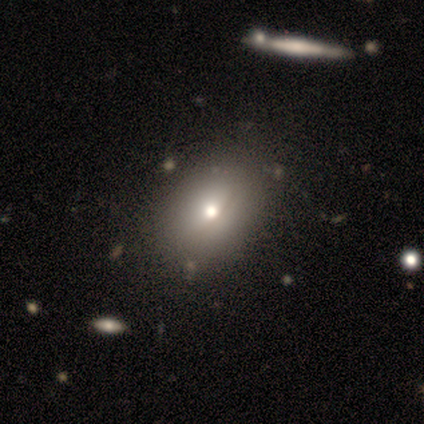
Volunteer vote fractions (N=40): smooth-or-featured: smooth: 80% | featured or disk: 18% | star or artifact: 2%
  how-rounded: in between: 72% | round: 25% | cigar-shaped: 3%
  merging: none: 56% | minor disturbance: 10% | merger: 5% | major disturbance: 3%